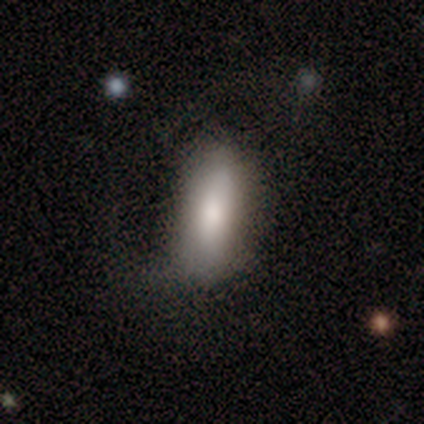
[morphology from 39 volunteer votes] A smooth galaxy with no disk features (74%) that is in between round and cigar-shaped (72%).

Vote fractions:
- Smooth or featured? smooth: 74% / featured or disk: 23% / star or artifact: 3%
- How rounded? in between: 72% / cigar-shaped: 28% / round: 0%
- Merging? minor disturbance: 47% / none: 37% / major disturbance: 16% / merger: 0%